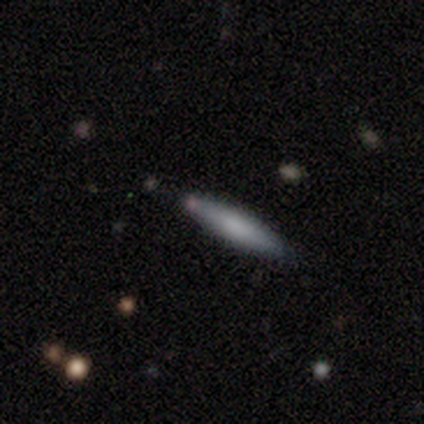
Smooth or featured? smooth (83%)
How rounded? cigar-shaped (80%)
Merging? none (83%)